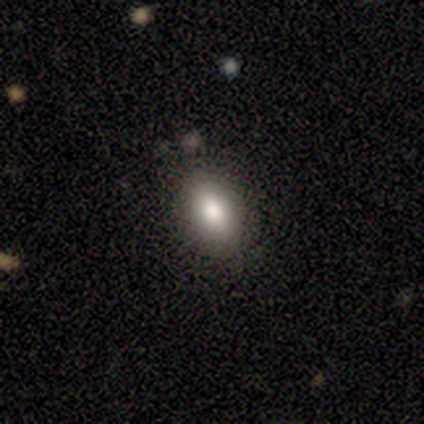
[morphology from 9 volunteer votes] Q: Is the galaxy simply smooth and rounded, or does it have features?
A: smooth — 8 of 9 (89%).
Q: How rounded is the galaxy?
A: in between — 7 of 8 (88%).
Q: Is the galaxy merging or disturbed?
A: none — 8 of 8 (100%).